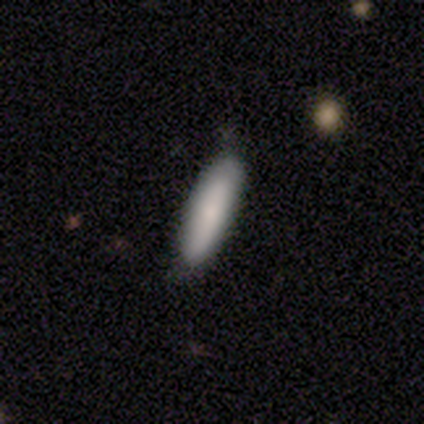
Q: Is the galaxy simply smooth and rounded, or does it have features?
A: smooth — 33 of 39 (85%).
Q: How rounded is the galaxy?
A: cigar-shaped — 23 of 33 (70%).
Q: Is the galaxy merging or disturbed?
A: none — 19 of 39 (49%).